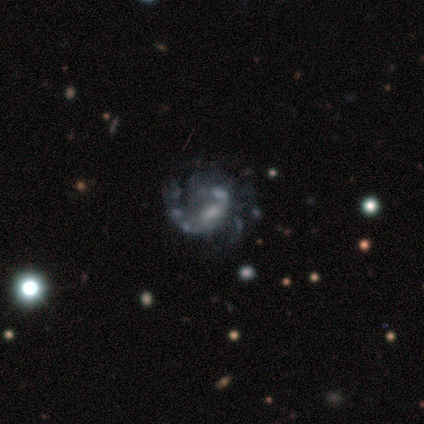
Smooth or featured: featured or disk — 80% (star or artifact — 20%)
Edge-on disk: no — 100%
Bar: weak — 50% (tied with no — 50%)
Spiral arms: yes — 50% (tied with no — 50%)
Spiral winding: medium — 50% (tied with loose — 50%)
Spiral arm count: 1 — 50% (tied with can't tell — 50%)
Bulge size: small — 75% (moderate — 25%)
Merging: major disturbance — 50% (minor disturbance — 25%)